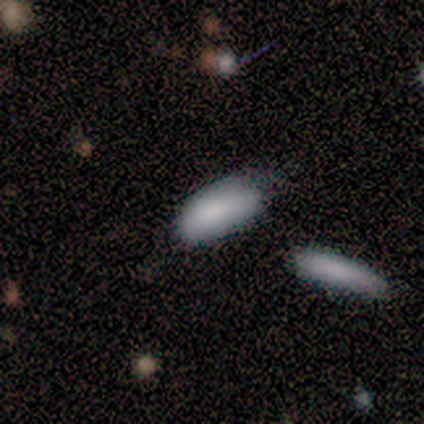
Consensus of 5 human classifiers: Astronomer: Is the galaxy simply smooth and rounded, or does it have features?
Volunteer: smooth — 100%.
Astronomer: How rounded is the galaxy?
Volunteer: in between — 60%.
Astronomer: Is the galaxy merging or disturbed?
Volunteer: minor disturbance — 40%, tied with major disturbance at 40%.